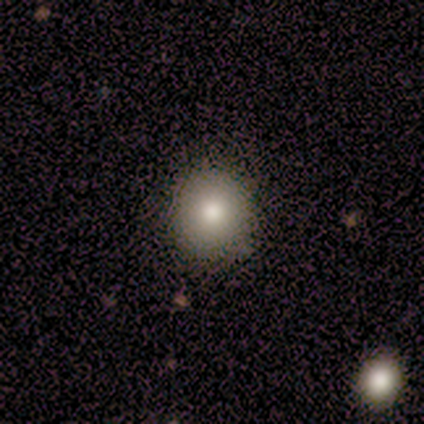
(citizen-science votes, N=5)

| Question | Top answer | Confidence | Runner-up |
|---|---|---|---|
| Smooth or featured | smooth | 100% | — |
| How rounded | round | 100% | — |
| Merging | none | 100% | — |